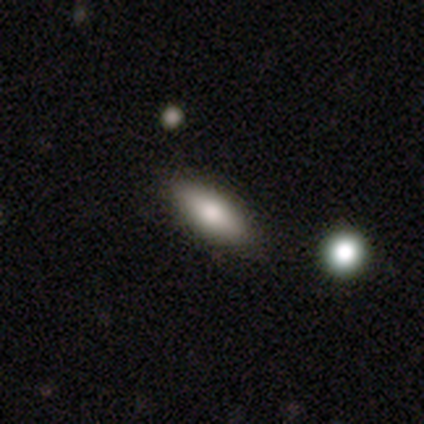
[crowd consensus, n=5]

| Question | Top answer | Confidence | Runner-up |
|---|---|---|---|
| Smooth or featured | smooth | 100% | — |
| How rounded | in between | 100% | — |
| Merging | none | 100% | — |